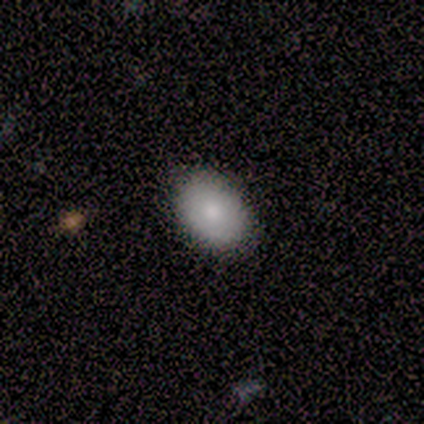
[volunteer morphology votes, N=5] Overall: smooth (80%). How rounded: round (50%, tied with in between). Merging: none (100%).